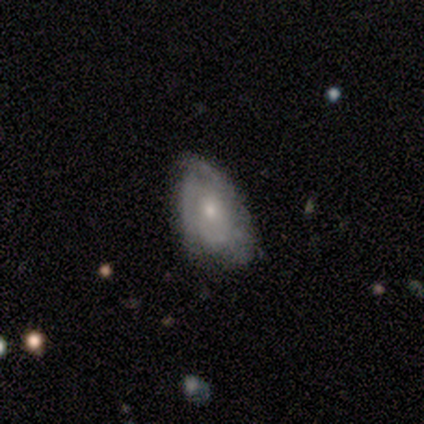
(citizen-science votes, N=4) Q: Smooth or featured?
A: featured or disk (100%)
Q: Edge-on disk?
A: no (100%)
Q: Bar?
A: no (100%)
Q: Spiral arms?
A: yes (75%); runner-up: no (25%)
Q: Spiral winding?
A: tight (67%); runner-up: medium (33%)
Q: Spiral arm count?
A: 3 (67%); runner-up: can't tell (33%)
Q: Bulge size?
A: moderate (50%); tied with: small (50%)
Q: Merging?
A: none (50%); tied with: minor disturbance (50%)